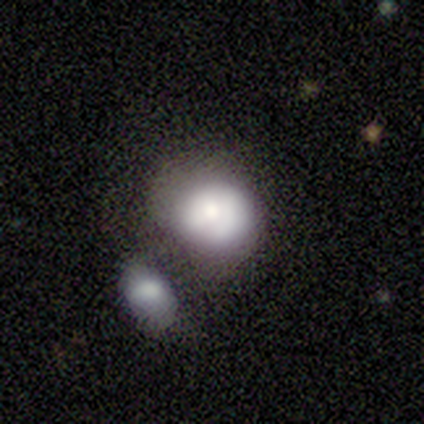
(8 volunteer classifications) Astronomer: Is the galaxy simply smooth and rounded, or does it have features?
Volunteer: smooth — 62%.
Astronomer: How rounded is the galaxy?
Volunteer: in between — 80%.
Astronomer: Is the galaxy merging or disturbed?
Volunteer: none — 57%.